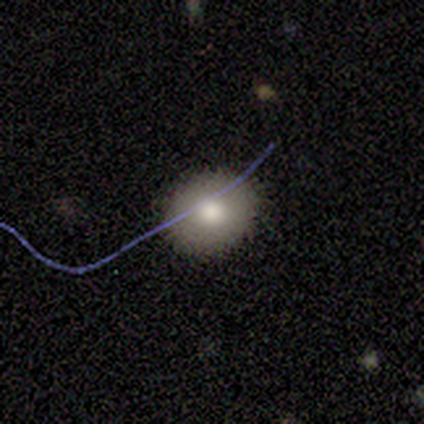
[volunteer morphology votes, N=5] This is clearly a smooth galaxy (100%). How rounded: likely in between (60%). Merging: clearly none (100%).